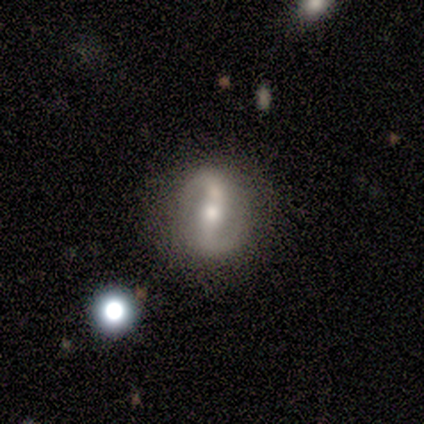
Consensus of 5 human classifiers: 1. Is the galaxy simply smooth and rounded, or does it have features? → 100% featured or disk, 0% smooth, 0% star or artifact.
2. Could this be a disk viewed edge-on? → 100% no, 0% yes.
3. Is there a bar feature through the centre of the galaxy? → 40% strong (tied), 40% weak (tied), 20% no.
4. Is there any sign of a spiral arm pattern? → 100% yes, 0% no.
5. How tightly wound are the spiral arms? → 60% loose, 20% tight, 20% medium.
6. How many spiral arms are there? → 100% 2, 0% 1, 0% 3, 0% 4, 0% more than 4, 0% can't tell.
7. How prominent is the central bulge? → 60% moderate, 40% small, 0% dominant, 0% large, 0% none.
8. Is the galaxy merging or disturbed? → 80% none, 20% major disturbance, 0% minor disturbance, 0% merger.